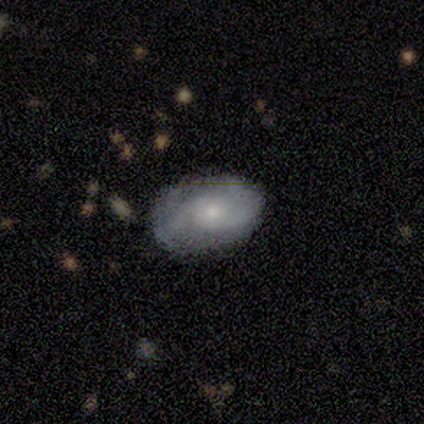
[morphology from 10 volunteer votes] Smooth or featured: featured or disk — 60% (smooth — 30%)
Edge-on disk: no — 100%
Bar: no — 100%
Spiral arms: yes — 100%
Spiral winding: medium — 83% (tight — 17%)
Spiral arm count: 2 — 83% (1 — 17%)
Bulge size: small — 67% (moderate — 33%)
Merging: none — 44% (minor disturbance — 33%)